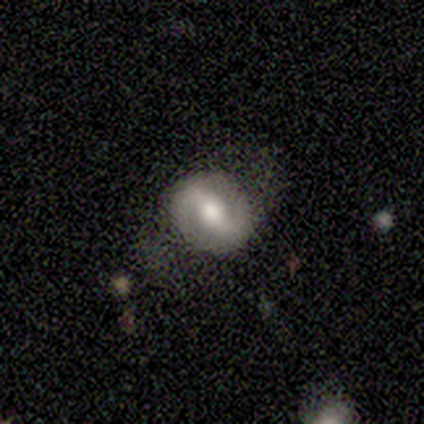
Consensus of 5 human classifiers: smooth_or_featured: featured or disk (p=0.80) [alt: star or artifact p=0.20]
disk_edge_on: no (p=1.00)
bar: strong (p=0.50) [alt: weak p=0.25]
has_spiral_arms: yes (p=1.00)
spiral_winding: loose (p=0.75) [alt: medium p=0.25]
spiral_arm_count: 2 (p=1.00)
bulge_size: moderate (p=0.75) [alt: large p=0.25]
merging: none (p=1.00)